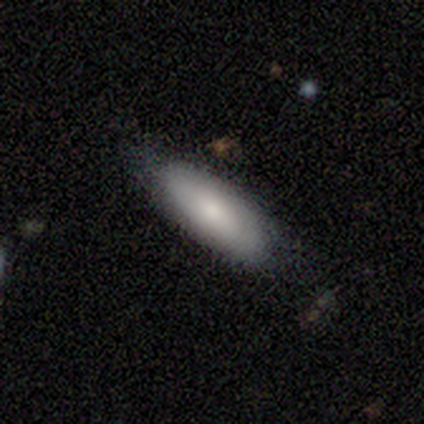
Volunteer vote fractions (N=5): smooth_or_featured: smooth (p=0.80) [alt: featured or disk p=0.20]
how_rounded: in between (p=0.50) [tied with: cigar-shaped p=0.50]
merging: none (p=0.60) [alt: minor disturbance p=0.20]